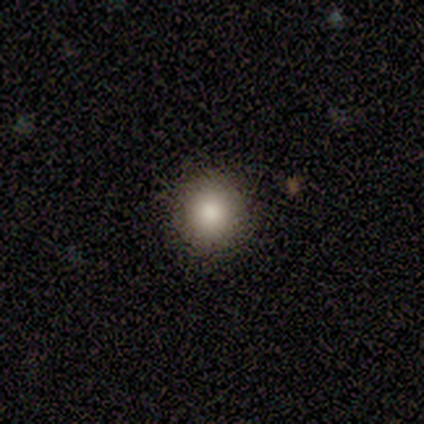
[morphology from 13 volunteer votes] A smooth galaxy with no disk features (77%) that is round (100%). Merging: none (83%).